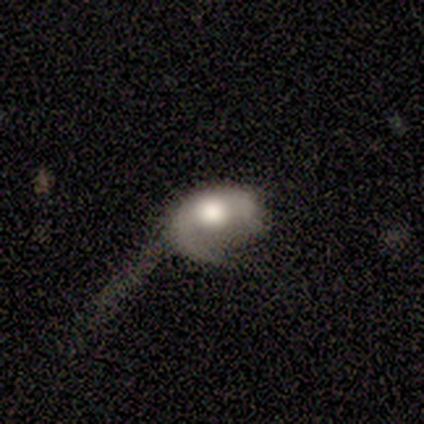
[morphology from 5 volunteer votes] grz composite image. It shows a featured or disk galaxy (60%) with no bar (100%), 1 (50%, tied with can't tell) tight (50%, tied with medium) spiral arms (67%) and a large central bulge (67%). Merging: major disturbance (80%).